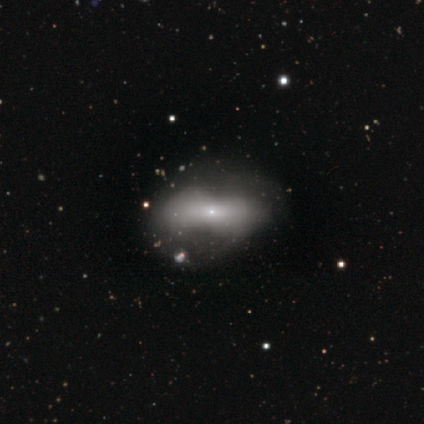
Smooth or featured?
  - featured or disk: 52% *
  - smooth: 40%
  - star or artifact: 8%
Edge-on disk?
  - no: 76% *
  - yes: 24%
Bar?
  - no: 88% *
  - strong: 12%
  - weak: 0%
Spiral arms?
  - no: 94% *
  - yes: 6%
Bulge size?
  - small: 88% *
  - large: 6%
  - moderate: 6%
  - dominant: 0%
  - none: 0%
Merging?
  - major disturbance: 24% *
  - none: 19%
  - minor disturbance: 19%
  - merger: 11%